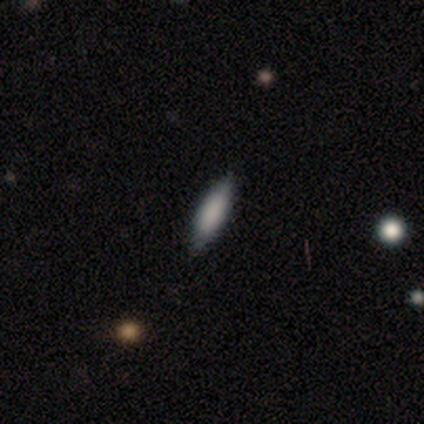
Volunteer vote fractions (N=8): Morphology: type=smooth (88%); roundness=cigar-shaped (71%); merging=none (100%).